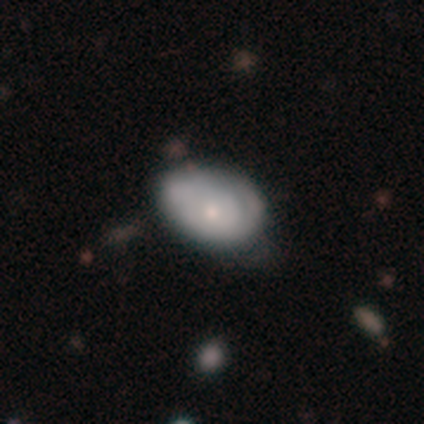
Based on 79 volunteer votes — This appears to be a smooth galaxy with no disk features (49%) that is in between round and cigar-shaped (82%). Merging: none (24%).